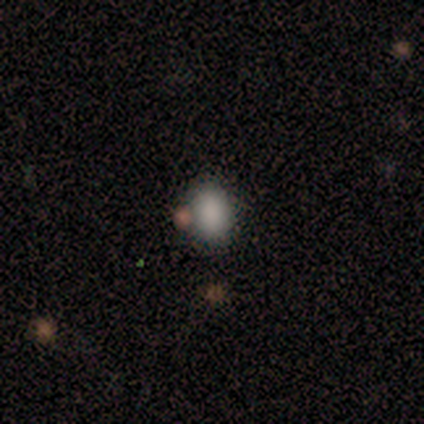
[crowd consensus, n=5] Smooth or featured: smooth — 100%
How rounded: in between — 60% (round — 40%)
Merging: none — 80% (minor disturbance — 20%)